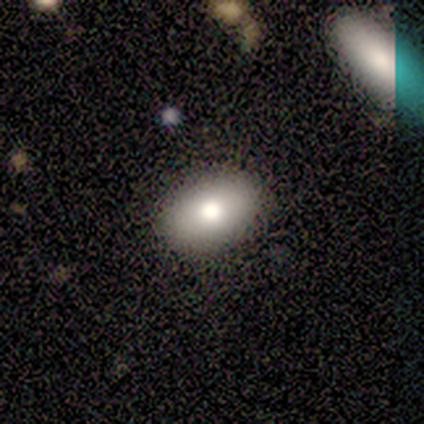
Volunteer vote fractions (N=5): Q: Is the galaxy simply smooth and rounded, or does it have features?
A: smooth — 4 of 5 (80%).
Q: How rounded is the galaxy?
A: in between — 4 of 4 (100%).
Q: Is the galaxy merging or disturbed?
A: none — 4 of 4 (100%).